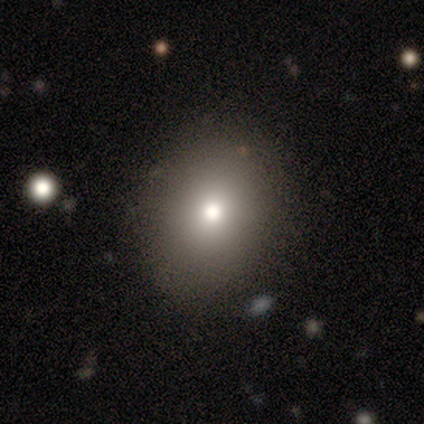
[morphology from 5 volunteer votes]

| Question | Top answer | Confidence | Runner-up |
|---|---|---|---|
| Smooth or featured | smooth | 80% | featured or disk (20%) |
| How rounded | round | 100% | — |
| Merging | none | 100% | — |